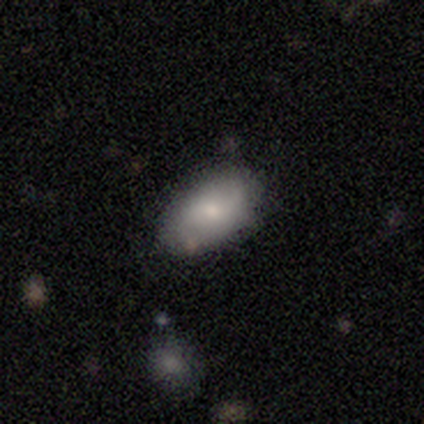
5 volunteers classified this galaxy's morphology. smooth-or-featured: smooth: 60% | featured or disk: 20% | star or artifact: 20%
  how-rounded: in between: 100% | round: 0% | cigar-shaped: 0%
  merging: none: 75% | minor disturbance: 25% | major disturbance: 0% | merger: 0%